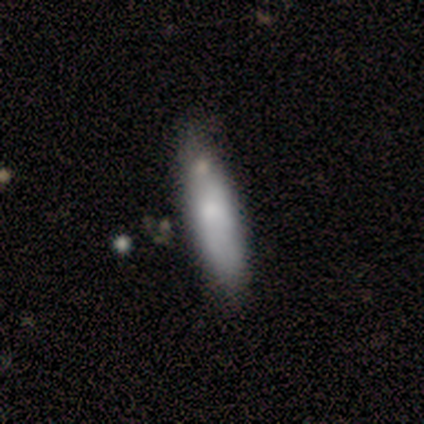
A smooth galaxy with no disk features (100%) that is in between round and cigar-shaped (75%).

Vote fractions:
- Smooth or featured? smooth: 100% / featured or disk: 0% / star or artifact: 0%
- How rounded? in between: 75% / cigar-shaped: 25% / round: 0%
- Merging? minor disturbance: 50% / none: 25% / major disturbance: 25% / merger: 0%